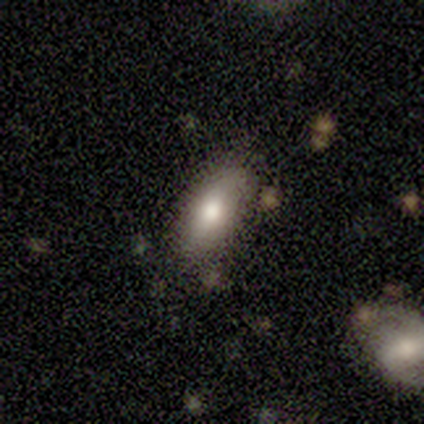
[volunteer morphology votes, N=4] smooth 100%, featured or disk 0%, star or artifact 0%. Down the decision tree: how rounded — in between (50%, tied with cigar-shaped); merging — none (100%).